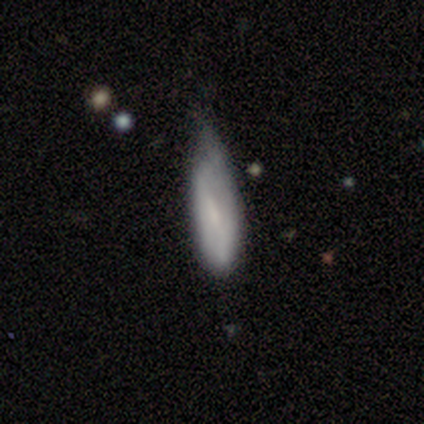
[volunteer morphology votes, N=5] Smooth or featured? 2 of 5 (40%, tied with featured or disk) said smooth. How rounded? 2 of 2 (100%) said in between. Merging? 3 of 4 (75%) said minor disturbance.